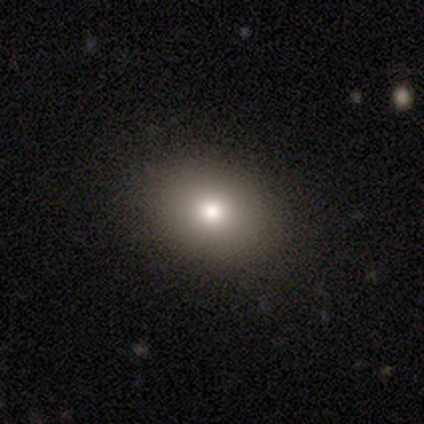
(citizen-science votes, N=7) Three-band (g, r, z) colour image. It shows a smooth galaxy with no disk features (100%) that is in between round and cigar-shaped (71%). Merging: none (86%).